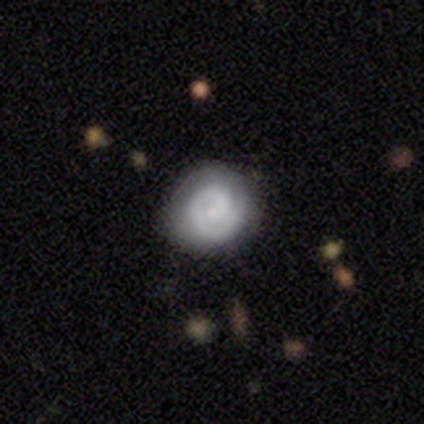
Smooth or featured? featured or disk (72%)
Edge-on disk? no (100%)
Bar? no (72%)
Spiral arms? yes (97%)
Spiral winding? tight (89%)
Spiral arm count? 1 (64%)
Bulge size? small (62%)
Merging? none (72%)